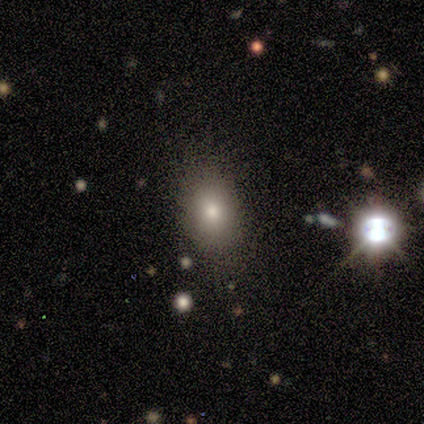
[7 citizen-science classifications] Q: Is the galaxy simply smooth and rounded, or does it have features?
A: star or artifact — 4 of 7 (57%).